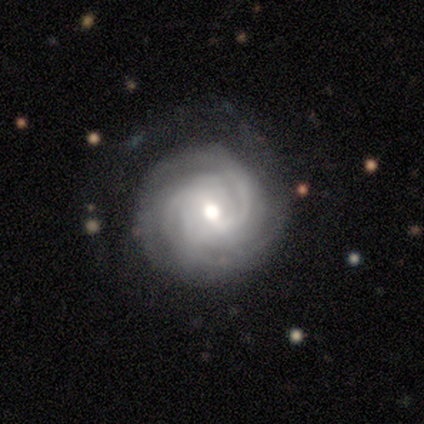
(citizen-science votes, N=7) Morphology: type=featured or disk (100%); edge-on=no (100%); bar=no (71%); spiral arms=yes (100%); winding=tight (86%); arm count=2 (71%); bulge=moderate (86%); merging=none (86%).